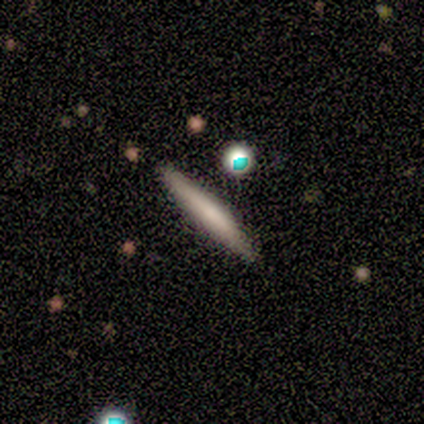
smooth-or-featured: smooth: 100% | featured or disk: 0% | star or artifact: 0%
  how-rounded: cigar-shaped: 100% | round: 0% | in between: 0%
  merging: none: 50% (tied) | minor disturbance: 50% (tied) | major disturbance: 0% | merger: 0%